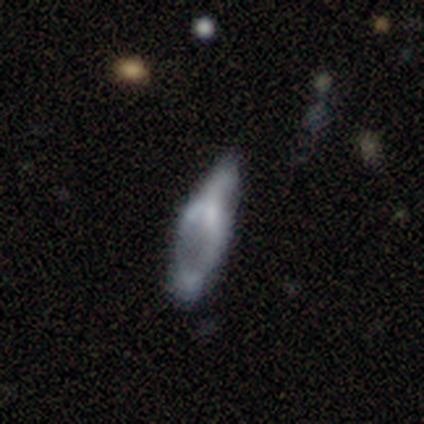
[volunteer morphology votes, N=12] smooth_or_featured: featured or disk (p=0.50) [alt: smooth p=0.33]
disk_edge_on: no (p=1.00)
bar: no (p=0.67) [alt: strong p=0.17]
has_spiral_arms: no (p=0.83) [alt: yes p=0.17]
bulge_size: none (p=0.50) [alt: small p=0.33]
merging: minor disturbance (p=0.40) [alt: major disturbance p=0.30]